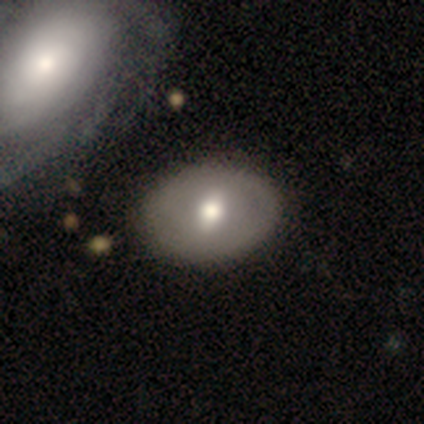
A smooth galaxy with no disk features (53%) that is in between round and cigar-shaped (75%). Merging: none (65%).